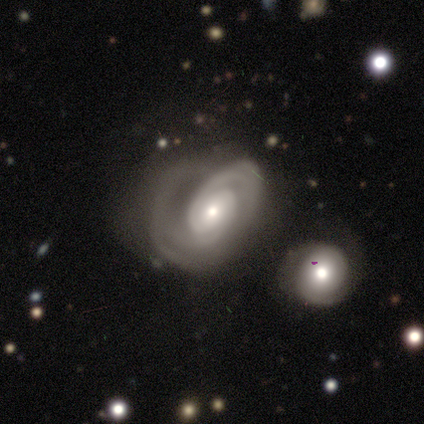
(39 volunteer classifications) This appears to be a featured or disk galaxy (90%) with no bar (65%), 2 (48%) medium (42%) spiral arms (97%) and a moderate central bulge (53%). Merging: none (41%).